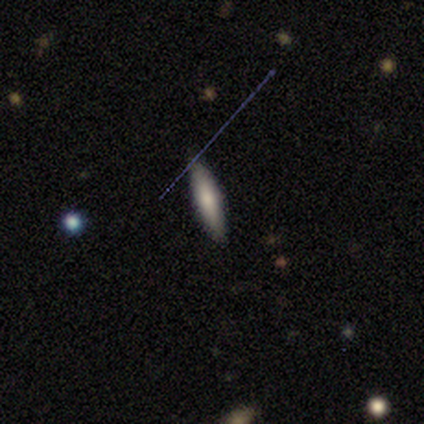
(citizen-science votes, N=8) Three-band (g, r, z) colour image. It shows a smooth galaxy with no disk features (50%) that is cigar-shaped (75%). Merging: none (86%).